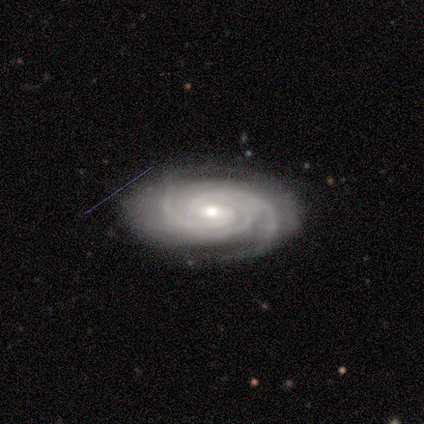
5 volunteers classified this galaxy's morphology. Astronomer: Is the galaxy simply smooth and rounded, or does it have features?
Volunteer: featured or disk — 100%.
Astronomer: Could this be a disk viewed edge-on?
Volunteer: no — 100%.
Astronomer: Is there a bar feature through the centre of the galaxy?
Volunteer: weak — 60% (runner-up: no, 40%).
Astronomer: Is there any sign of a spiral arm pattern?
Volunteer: yes — 100%.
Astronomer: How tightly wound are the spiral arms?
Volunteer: tight — 80%.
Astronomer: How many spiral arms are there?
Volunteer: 2 — 60% (runner-up: 3, 40%).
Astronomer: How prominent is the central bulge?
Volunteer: small — 100%.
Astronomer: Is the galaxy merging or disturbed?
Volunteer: none — 80%.